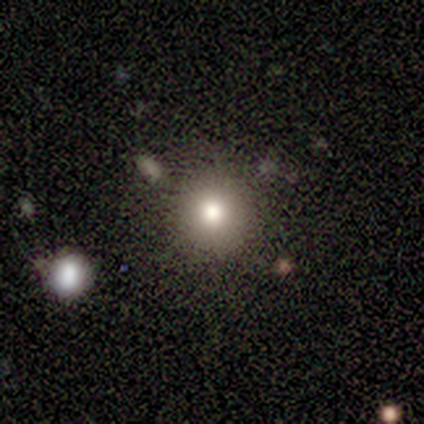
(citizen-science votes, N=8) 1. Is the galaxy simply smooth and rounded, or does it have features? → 88% smooth, 12% star or artifact, 0% featured or disk.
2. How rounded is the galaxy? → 100% round, 0% in between, 0% cigar-shaped.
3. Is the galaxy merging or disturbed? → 100% none, 0% minor disturbance, 0% major disturbance, 0% merger.